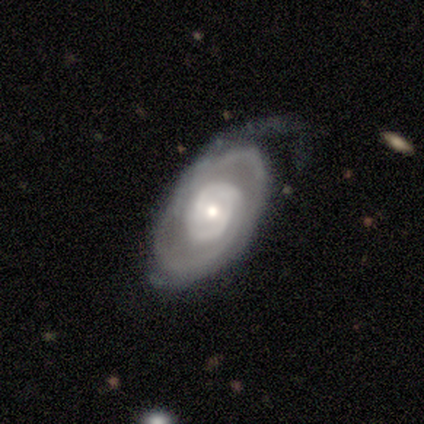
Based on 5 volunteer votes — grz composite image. It shows a featured or disk galaxy (100%) with no bar (100%), 2 (50%) tight (50%) spiral arms (80%) and a small central bulge (80%). Merging: none (80%).